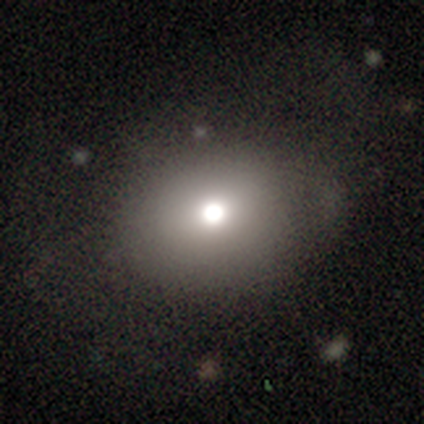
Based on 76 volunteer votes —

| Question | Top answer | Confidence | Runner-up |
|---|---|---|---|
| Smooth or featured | smooth | 68% | featured or disk (17%) |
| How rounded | round | 67% | in between (33%) |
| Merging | none | 45% | minor disturbance (6%) |